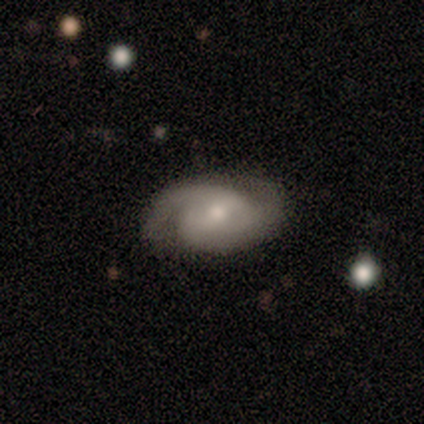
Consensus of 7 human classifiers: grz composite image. It shows a featured or disk galaxy (86%) with a weak bar (83%), 2 (83%) tight (50%, tied with medium) spiral arms (100%) and a moderate central bulge (50%). Merging: none (71%).